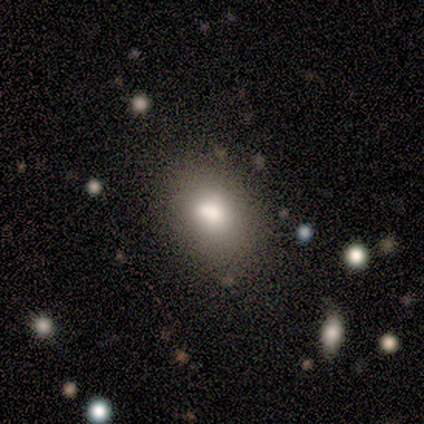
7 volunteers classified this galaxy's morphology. Smooth or featured: smooth — 100%
How rounded: in between — 86% (round — 14%)
Merging: none — 86% (minor disturbance — 14%)